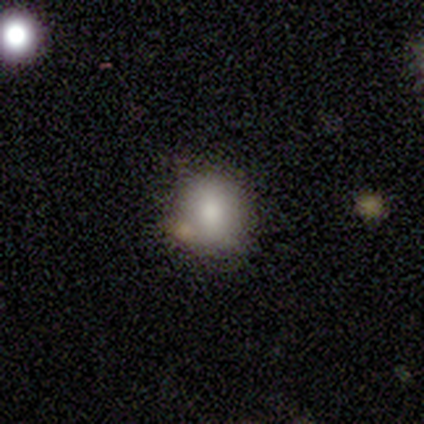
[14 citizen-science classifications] smooth-or-featured: smooth: 71% | featured or disk: 21% | star or artifact: 7%
  how-rounded: round: 80% | in between: 20% | cigar-shaped: 0%
  merging: none: 77% | minor disturbance: 15% | major disturbance: 8% | merger: 0%